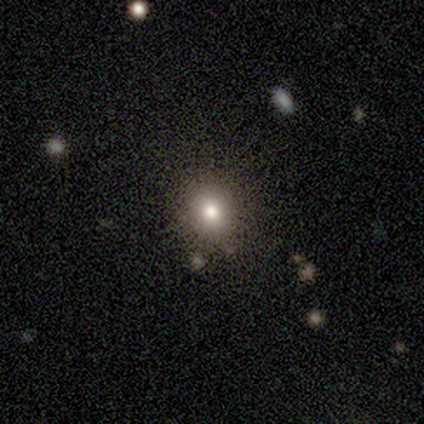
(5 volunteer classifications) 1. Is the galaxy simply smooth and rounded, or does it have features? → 100% smooth, 0% featured or disk, 0% star or artifact.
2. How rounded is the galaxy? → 100% round, 0% in between, 0% cigar-shaped.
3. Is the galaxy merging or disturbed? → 80% none, 20% minor disturbance, 0% major disturbance, 0% merger.